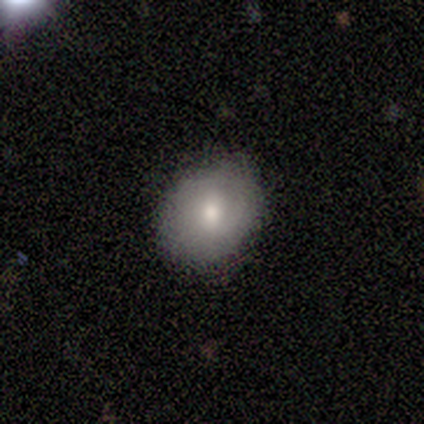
Smooth or featured?
  - smooth: 80% *
  - featured or disk: 20%
  - star or artifact: 0%
How rounded?
  - in between: 75% *
  - round: 25%
  - cigar-shaped: 0%
Merging?
  - none: 80% *
  - minor disturbance: 20%
  - major disturbance: 0%
  - merger: 0%